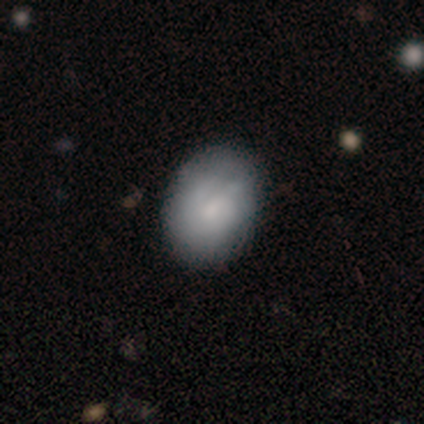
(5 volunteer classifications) featured or disk 60%, smooth 40%, star or artifact 0%. Down the decision tree: edge-on disk — no (100%); bar — weak (67%); spiral arms — yes (100%); spiral arm count — can't tell (67%); spiral winding — tight (67%); bulge size — small (67%); merging — none (100%).